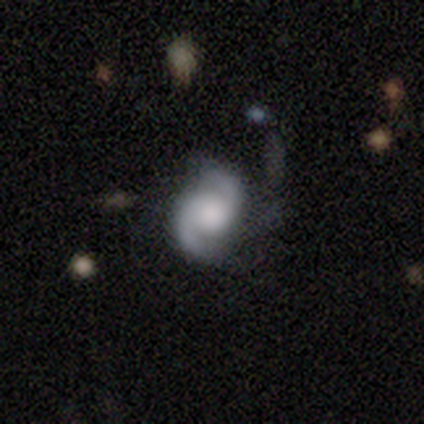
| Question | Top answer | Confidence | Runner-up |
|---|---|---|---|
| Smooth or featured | featured or disk | 76% | star or artifact (14%) |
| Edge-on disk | no | 100% | — |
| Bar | no | 61% | weak (39%) |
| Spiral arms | yes | 100% | — |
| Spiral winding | medium | 46% | tight (39%) |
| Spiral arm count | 2 | 93% | 3 (4%) |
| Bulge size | large | 50% | moderate (25%) |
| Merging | none | 62% | minor disturbance (19%) |